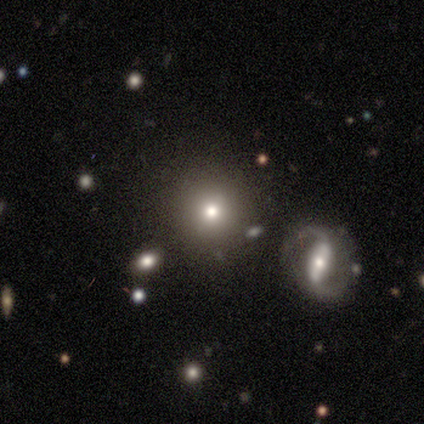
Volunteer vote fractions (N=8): A smooth galaxy with no disk features (88%) that is round (100%). Merging: none (88%).